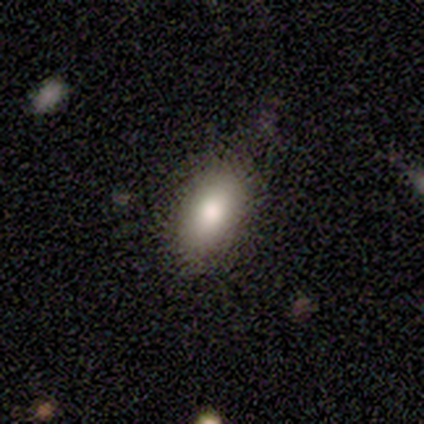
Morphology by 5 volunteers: Q: Smooth or featured?
A: smooth (80%); runner-up: featured or disk (20%)
Q: How rounded?
A: in between (75%); runner-up: cigar-shaped (25%)
Q: Merging?
A: none (80%); runner-up: major disturbance (20%)